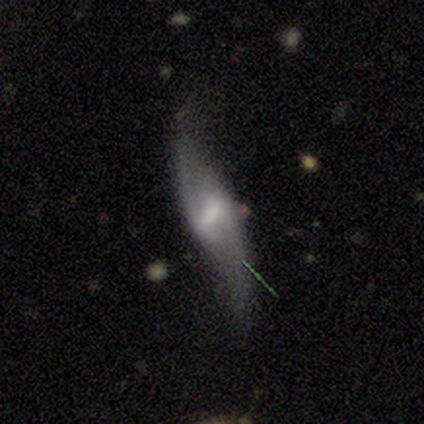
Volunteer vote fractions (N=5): Smooth or featured? 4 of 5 (80%) said featured or disk. Edge-on disk? 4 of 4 (100%) said no. Bar? 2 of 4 (50%) said no. Spiral arms? 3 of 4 (75%) said yes. Spiral winding? 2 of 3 (67%) said loose. Spiral arm count? 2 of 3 (67%) said 2. Bulge size? 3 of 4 (75%) said small. Merging? 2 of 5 (40%) said none.